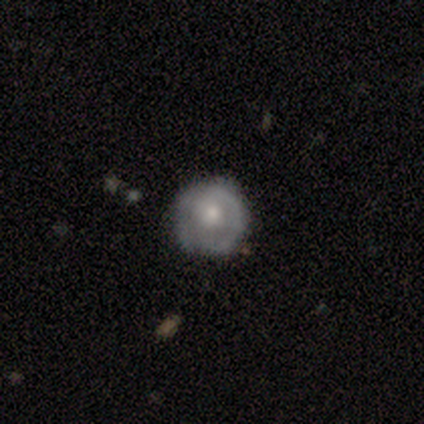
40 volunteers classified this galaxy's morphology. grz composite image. It shows a featured or disk galaxy (62%) with no bar (88%), 1 (50%) tight (64%) spiral arms (58%) and a moderate central bulge (58%). Merging: none (41%).